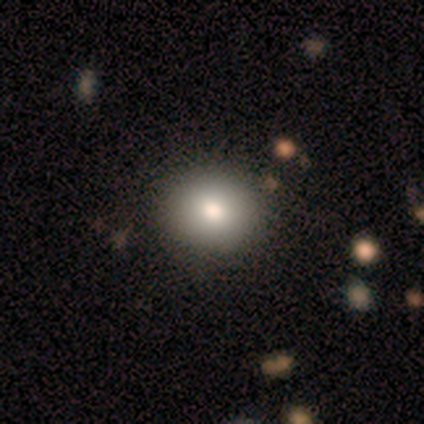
Smooth or featured? smooth (69%)
How rounded? round (81%)
Merging? none (93%)